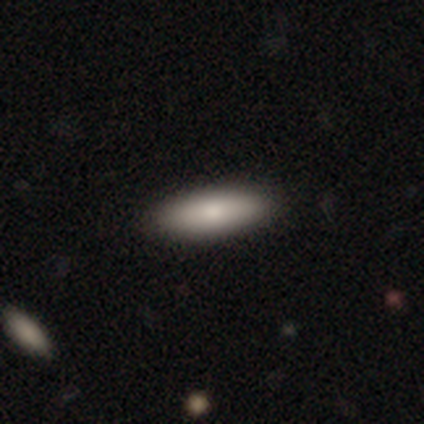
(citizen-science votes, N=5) smooth 80%, featured or disk 20%, star or artifact 0%. Down the decision tree: how rounded — in between (75%); merging — none (80%).